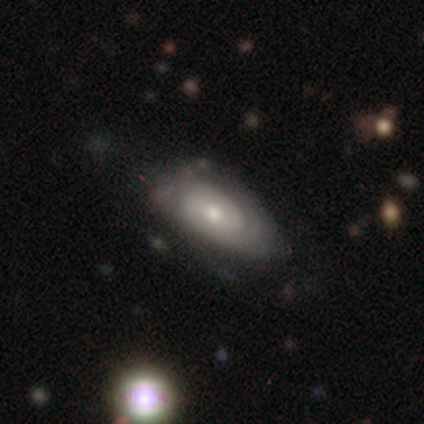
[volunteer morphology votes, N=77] Smooth or featured: featured or disk — 68% (smooth — 27%)
Edge-on disk: no — 98% (yes — 2%)
Bar: no — 61% (weak — 27%)
Spiral arms: yes — 86% (no — 14%)
Spiral winding: tight — 75% (medium — 23%)
Spiral arm count: 2 — 52% (can't tell — 39%)
Bulge size: small — 51% (moderate — 47%)
Merging: none — 27% (minor disturbance — 21%)